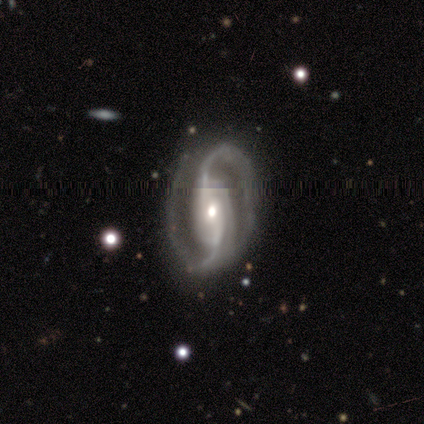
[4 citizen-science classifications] Volunteers were most divided on "merging" (2-way tie): none: 50%, minor disturbance: 50%, major disturbance: 0%, merger: 0%. More confident: smooth or featured — featured or disk (100%); edge-on disk — no (100%); spiral arms — yes (100%); spiral winding — medium (75%); spiral arm count — 2 (75%); bulge size — moderate (75%); bar — no (50%).